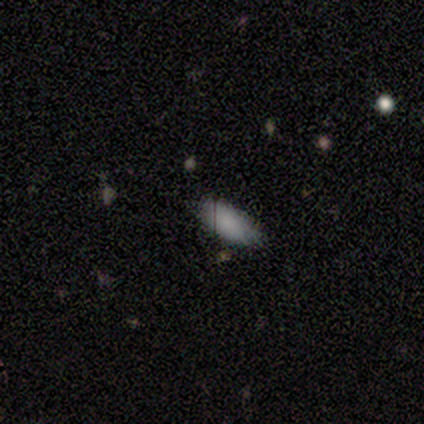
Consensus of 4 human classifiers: Smooth or featured: smooth — 100%
How rounded: in between — 75% (cigar-shaped — 25%)
Merging: none — 75% (minor disturbance — 25%)